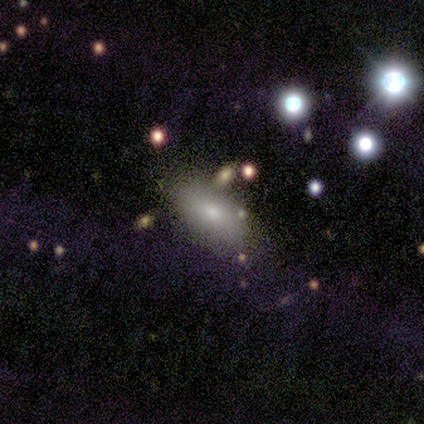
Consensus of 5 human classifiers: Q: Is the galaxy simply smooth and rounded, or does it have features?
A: smooth — 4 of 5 (80%).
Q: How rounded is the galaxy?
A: in between — 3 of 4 (75%).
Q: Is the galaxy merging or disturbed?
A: none — 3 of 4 (75%).